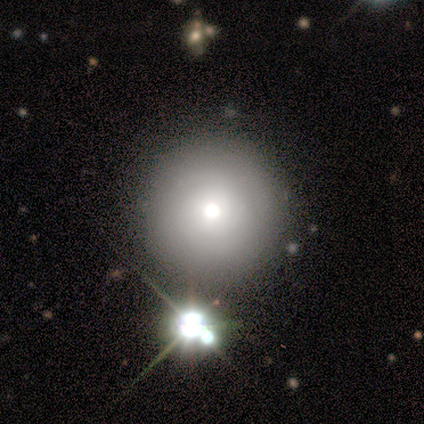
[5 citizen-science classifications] Smooth or featured? smooth (80%)
How rounded? round (100%)
Merging? none (100%)